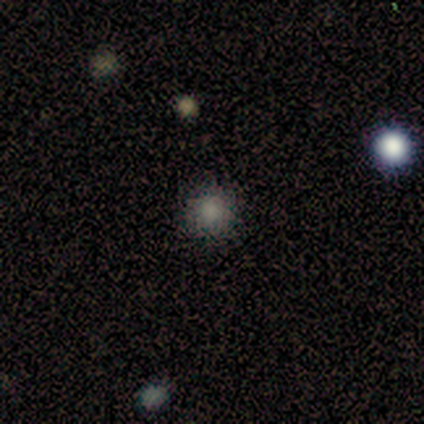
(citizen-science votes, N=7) smooth-or-featured: smooth: 71% | featured or disk: 14% | star or artifact: 14%
  how-rounded: round: 100% | in between: 0% | cigar-shaped: 0%
  merging: none: 83% | merger: 17% | minor disturbance: 0% | major disturbance: 0%